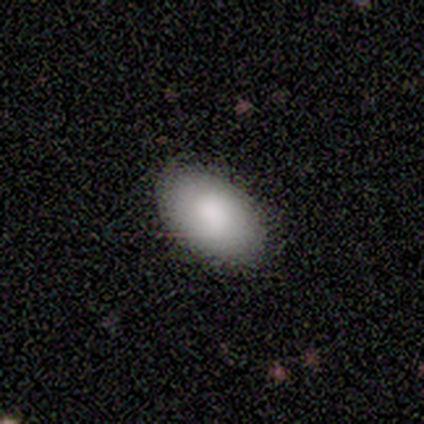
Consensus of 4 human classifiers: Q: Smooth or featured?
A: smooth (100%)
Q: How rounded?
A: in between (100%)
Q: Merging?
A: none (100%)